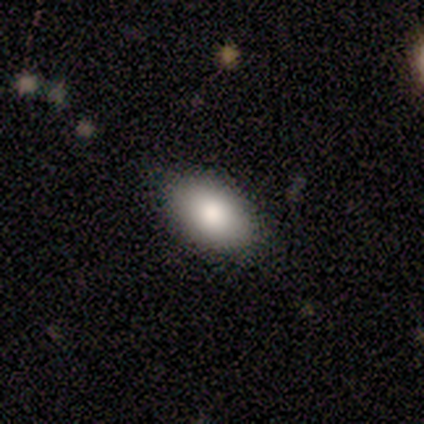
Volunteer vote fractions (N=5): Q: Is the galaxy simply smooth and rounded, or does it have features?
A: smooth — 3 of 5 (60%).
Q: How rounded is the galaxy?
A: in between — 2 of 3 (67%).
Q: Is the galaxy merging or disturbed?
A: none — 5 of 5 (100%).